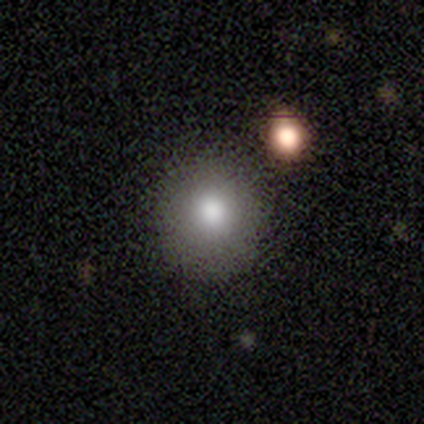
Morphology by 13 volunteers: Smooth or featured? smooth (77%)
How rounded? round (100%)
Merging? none (92%)